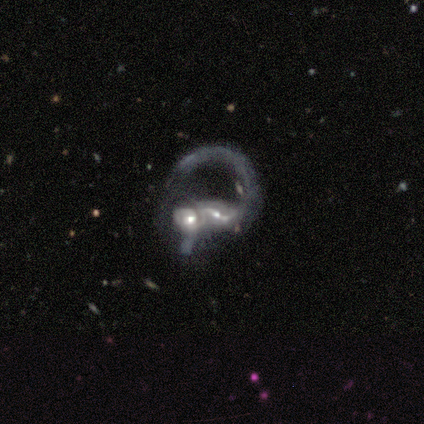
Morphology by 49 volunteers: Smooth or featured? featured or disk (88%)
Edge-on disk? no (100%)
Bar? strong (37%)
Spiral arms? yes (84%)
Spiral winding? loose (53%)
Spiral arm count? 2 (47%)
Bulge size? moderate (58%)
Merging? merger (76%)